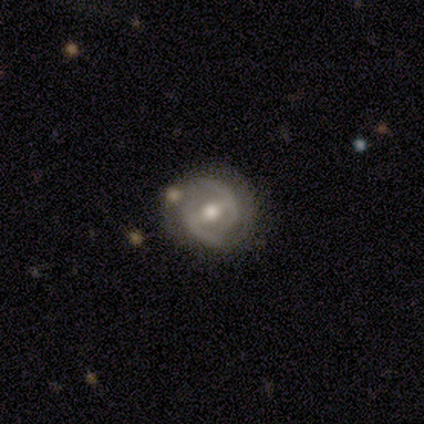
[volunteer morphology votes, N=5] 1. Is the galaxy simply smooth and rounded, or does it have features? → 100% featured or disk, 0% smooth, 0% star or artifact.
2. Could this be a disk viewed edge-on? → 80% no, 20% yes.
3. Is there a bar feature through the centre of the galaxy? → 50% weak, 25% strong, 25% no.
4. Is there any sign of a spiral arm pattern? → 75% yes, 25% no.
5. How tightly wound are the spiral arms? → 67% tight, 33% medium, 0% loose.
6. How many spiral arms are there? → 100% 2, 0% 1, 0% 3, 0% 4, 0% more than 4, 0% can't tell.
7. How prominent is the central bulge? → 75% moderate, 25% small, 0% dominant, 0% large, 0% none.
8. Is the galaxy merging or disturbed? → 80% none, 20% merger, 0% minor disturbance, 0% major disturbance.